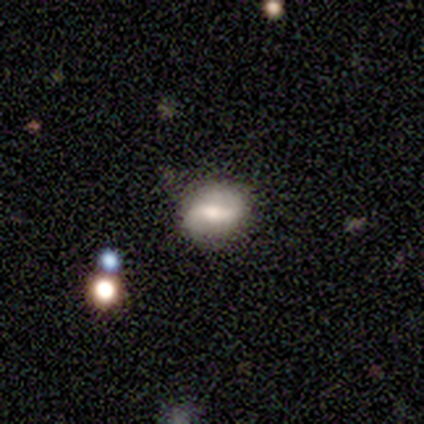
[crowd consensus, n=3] A featured or disk galaxy (100%) with a weak bar (100%), 2 (100%) medium (100%) spiral arms (50%, tied with no) and a dominant central bulge (50%, tied with moderate). Merging: none (67%).